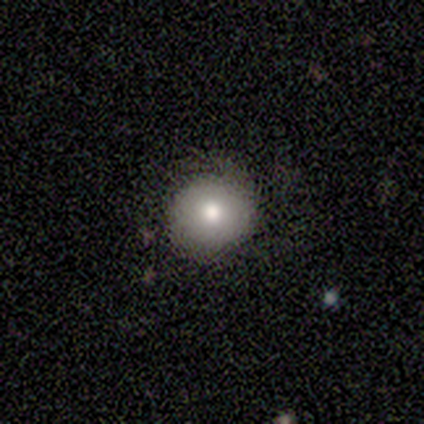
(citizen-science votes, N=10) This appears to be a smooth galaxy with no disk features (70%) that is round (86%). Merging: none (90%).